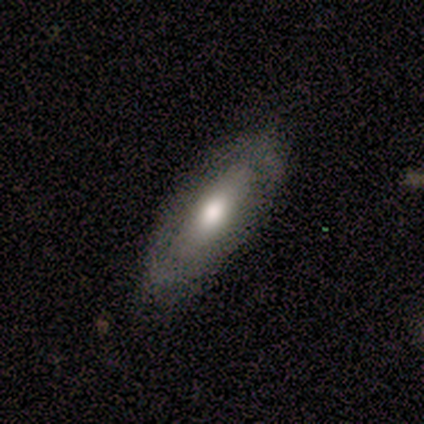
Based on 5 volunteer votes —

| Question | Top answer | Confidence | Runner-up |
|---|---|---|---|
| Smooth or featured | featured or disk | 100% | — |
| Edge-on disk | no | 60% | yes (40%) |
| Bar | no | 67% | strong (33%) |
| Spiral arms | no | 100% | — |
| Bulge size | moderate | 100% | — |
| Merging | none | 60% | minor disturbance (40%) |